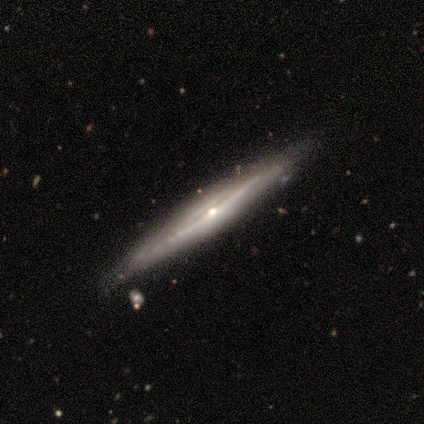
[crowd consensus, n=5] Smooth or featured? 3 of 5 (60%) said featured or disk. Edge-on disk? 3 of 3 (100%) said yes. Edge-on bulge? 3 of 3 (100%) said rounded. Merging? 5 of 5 (100%) said none.